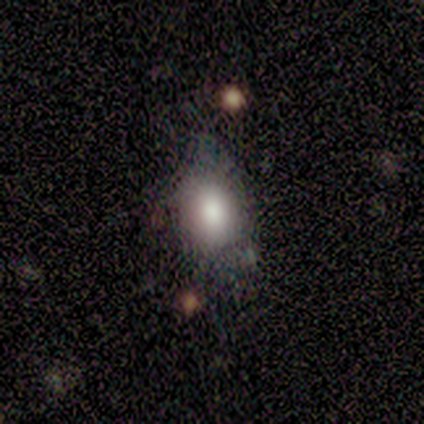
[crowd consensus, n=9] Smooth or featured? smooth (89%)
How rounded? in between (88%)
Merging? minor disturbance (56%)